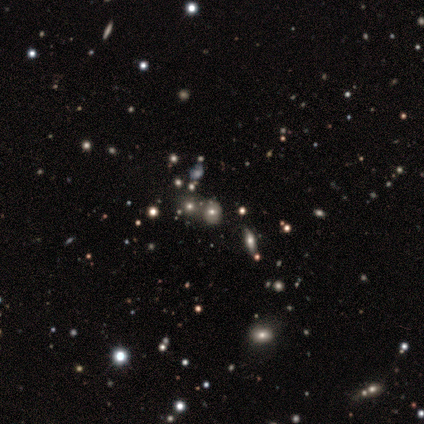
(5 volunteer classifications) Morphology: type=smooth (80%); roundness=round (75%); merging=none (50%, tied with merger).